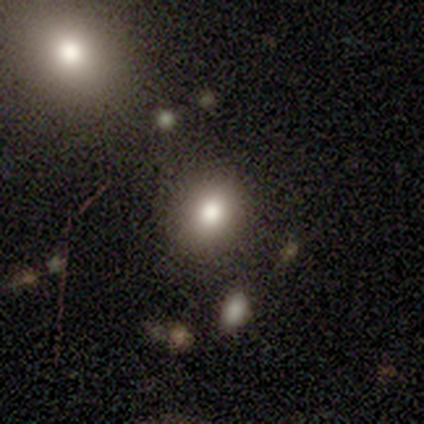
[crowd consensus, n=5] A smooth galaxy with no disk features (100%) that is in between round and cigar-shaped (80%).

Vote fractions:
- Smooth or featured? smooth: 100% / featured or disk: 0% / star or artifact: 0%
- How rounded? in between: 80% / round: 20% / cigar-shaped: 0%
- Merging? none: 100% / minor disturbance: 0% / major disturbance: 0% / merger: 0%